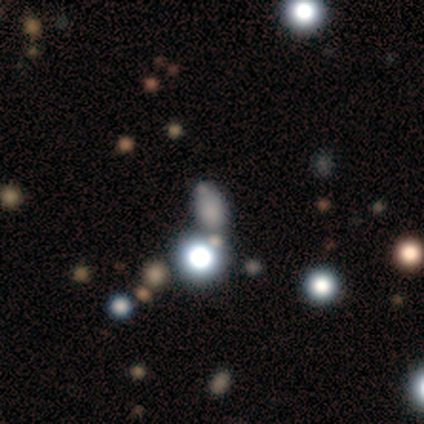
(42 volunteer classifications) smooth_or_featured: smooth (p=0.60) [alt: star or artifact p=0.26]
how_rounded: in between (p=0.56) [alt: round p=0.40]
merging: none (p=0.61) [alt: merger p=0.19]